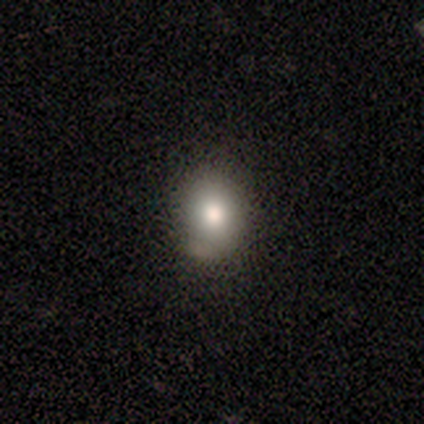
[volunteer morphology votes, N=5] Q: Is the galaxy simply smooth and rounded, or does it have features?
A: smooth — 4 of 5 (80%).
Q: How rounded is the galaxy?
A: round — 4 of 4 (100%).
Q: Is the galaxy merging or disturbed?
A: none — 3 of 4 (75%).